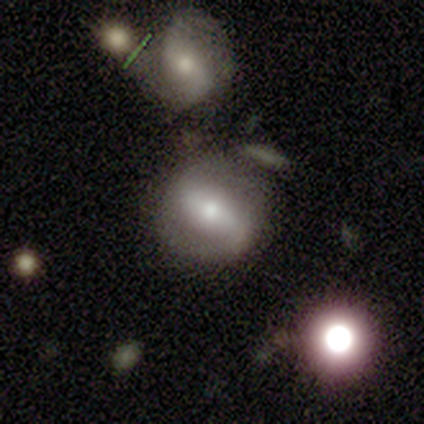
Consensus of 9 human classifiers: A featured or disk galaxy (67%) with a strong bar (83%), 2 (100%) tight (60%) spiral arms (83%) and a moderate central bulge (50%, tied with small). Merging: none (44%, tied with minor disturbance).